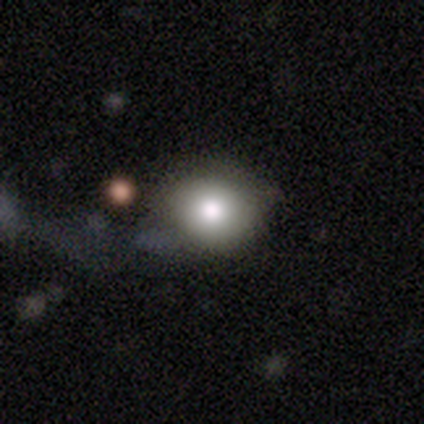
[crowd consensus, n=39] Q: Smooth or featured?
A: smooth (82%); runner-up: featured or disk (13%)
Q: How rounded?
A: round (75%); runner-up: in between (25%)
Q: Merging?
A: none (46%); runner-up: minor disturbance (8%)